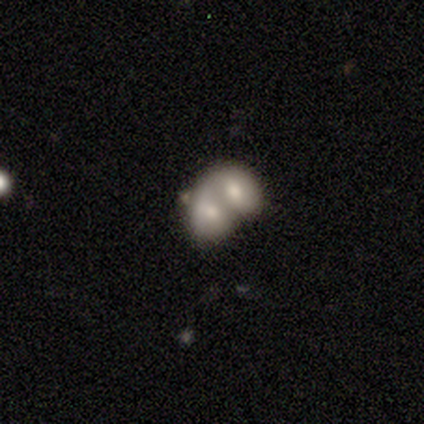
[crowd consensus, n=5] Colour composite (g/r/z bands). It shows a smooth galaxy with no disk features (40%, tied with featured or disk) that is round (50%, tied with in between). Merging: merger (100%).